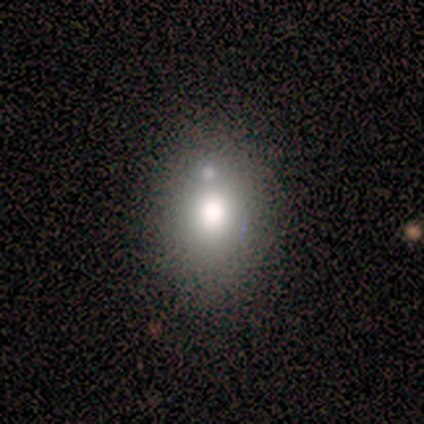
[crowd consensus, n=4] Overall: smooth (75%). How rounded: in between (100%). Merging: none (75%).